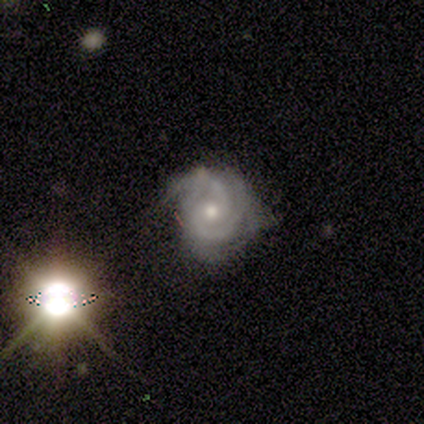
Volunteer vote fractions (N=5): This appears to be a featured or disk galaxy (100%) with no bar (60%), 2 (60%) tight (60%) spiral arms (100%) and a moderate central bulge (80%). Merging: minor disturbance (60%).